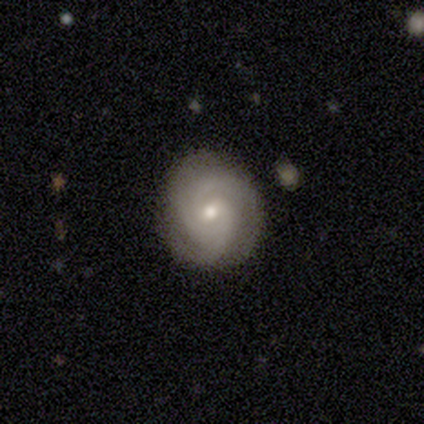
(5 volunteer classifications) Smooth or featured? featured or disk (100%)
Edge-on disk? no (100%)
Bar? no (80%)
Spiral arms? yes (100%)
Spiral winding? tight (60%)
Spiral arm count? 3 (60%)
Bulge size? moderate (80%)
Merging? none (80%)